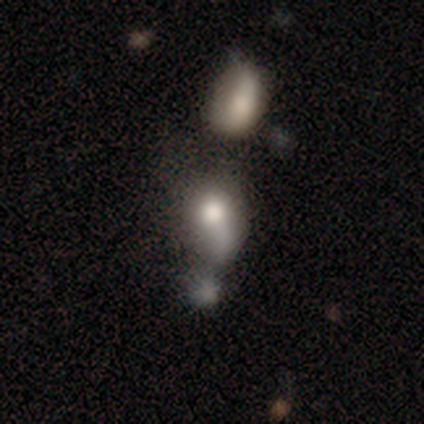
Smooth or featured: smooth — 100%
How rounded: round — 50% (tied with in between — 50%)
Merging: merger — 75% (major disturbance — 25%)